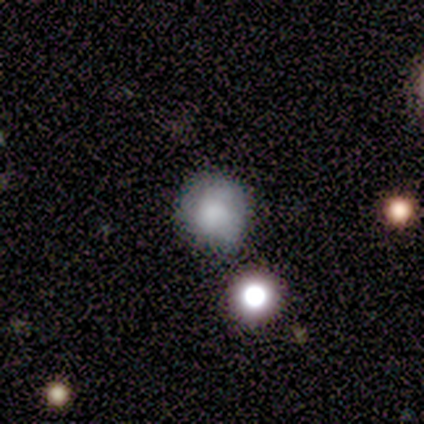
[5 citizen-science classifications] smooth-or-featured: smooth: 100% | featured or disk: 0% | star or artifact: 0%
  how-rounded: in between: 60% | round: 40% | cigar-shaped: 0%
  merging: none: 80% | minor disturbance: 20% | major disturbance: 0% | merger: 0%